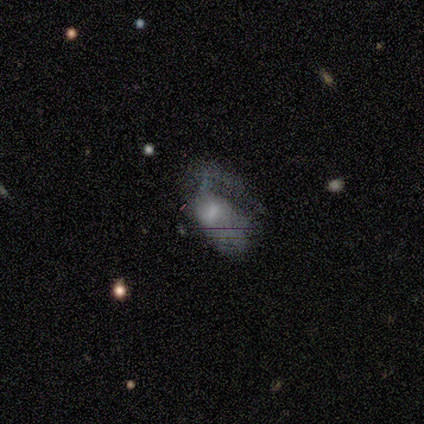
smooth 80%, featured or disk 20%, star or artifact 0%. Down the decision tree: how rounded — in between (100%); merging — none (40%, tied with major disturbance).